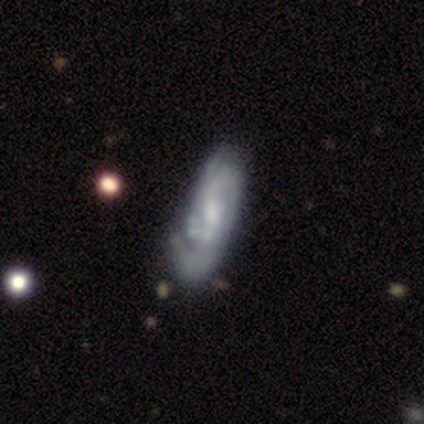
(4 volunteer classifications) This is likely a featured or disk galaxy (75%). It is likely not viewed edge-on (67%). Bar: possibly weak (50%, tied with no). Spiral arm pattern: clearly yes (100%). Spiral arm count: possibly 2 (50%, tied with 3). Spiral winding: possibly medium (50%, tied with loose). Central bulge: possibly moderate (50%, tied with small). Merging: possibly minor disturbance (50%).